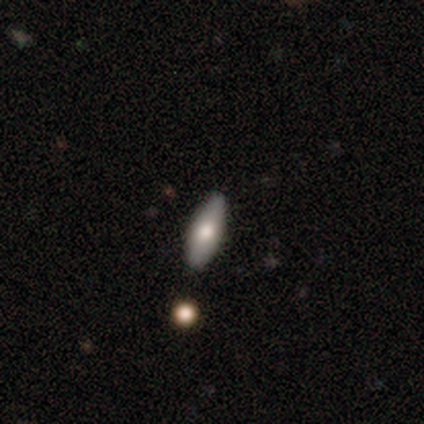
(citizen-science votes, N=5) Smooth or featured? smooth (100%)
How rounded? cigar-shaped (60%)
Merging? none (60%)